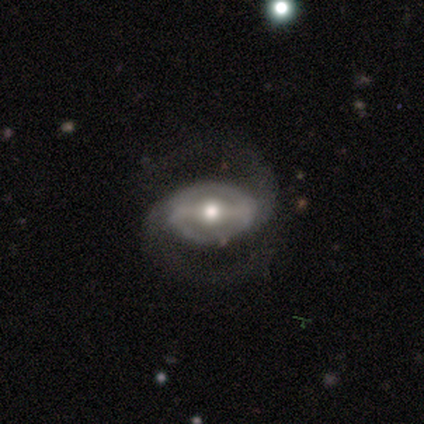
Smooth or featured? featured or disk (79%)
Edge-on disk? no (96%)
Bar? strong (51%)
Spiral arms? yes (92%)
Spiral winding? medium (60%)
Spiral arm count? 2 (98%)
Bulge size? moderate (75%)
Merging? none (75%)